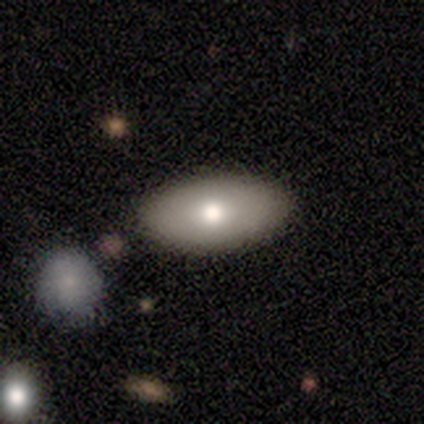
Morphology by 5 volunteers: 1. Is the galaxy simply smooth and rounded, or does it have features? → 80% smooth, 20% featured or disk, 0% star or artifact.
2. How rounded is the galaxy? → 100% in between, 0% round, 0% cigar-shaped.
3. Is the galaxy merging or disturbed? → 100% none, 0% minor disturbance, 0% major disturbance, 0% merger.